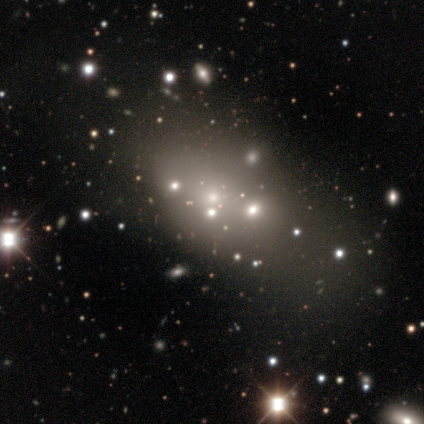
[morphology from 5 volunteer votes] Overall: star or artifact (60%; smooth 40%).